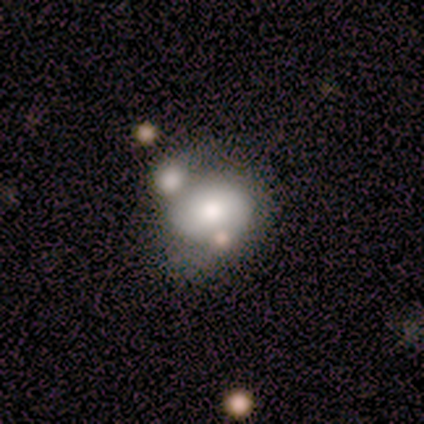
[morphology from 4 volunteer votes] Smooth or featured?
  - featured or disk: 75% *
  - smooth: 25%
  - star or artifact: 0%
Edge-on disk?
  - no: 100% *
  - yes: 0%
Bar?
  - no: 100% *
  - strong: 0%
  - weak: 0%
Spiral arms?
  - no: 100% *
  - yes: 0%
Bulge size?
  - moderate: 67% *
  - small: 33%
  - dominant: 0%
  - large: 0%
  - none: 0%
Merging?
  - none: 25% * (tied)
  - minor disturbance: 25% * (tied)
  - major disturbance: 25% * (tied)
  - merger: 25% * (tied)